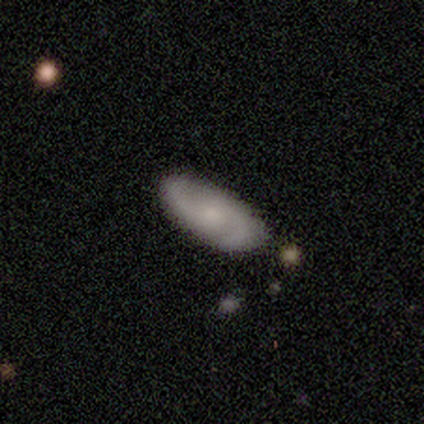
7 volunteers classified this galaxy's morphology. smooth_or_featured: featured or disk (p=1.00)
disk_edge_on: no (p=0.86) [alt: yes p=0.14]
bar: no (p=0.83) [alt: weak p=0.17]
has_spiral_arms: yes (p=1.00)
spiral_winding: medium (p=0.50) [alt: tight p=0.33]
spiral_arm_count: 2 (p=1.00)
bulge_size: moderate (p=0.50) [tied with: small p=0.50]
merging: none (p=0.86) [alt: minor disturbance p=0.14]